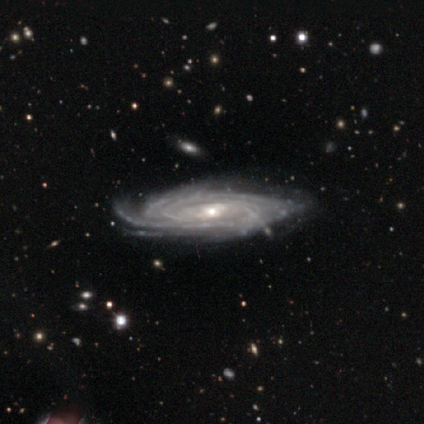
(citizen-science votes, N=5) smooth_or_featured: featured or disk (p=0.80) [alt: star or artifact p=0.20]
disk_edge_on: no (p=0.75) [alt: yes p=0.25]
bar: weak (p=0.67) [alt: no p=0.33]
has_spiral_arms: yes (p=1.00)
spiral_winding: tight (p=0.67) [alt: loose p=0.33]
spiral_arm_count: can't tell (p=0.67) [alt: more than 4 p=0.33]
bulge_size: small (p=0.67) [alt: moderate p=0.33]
merging: none (p=0.75) [alt: minor disturbance p=0.25]